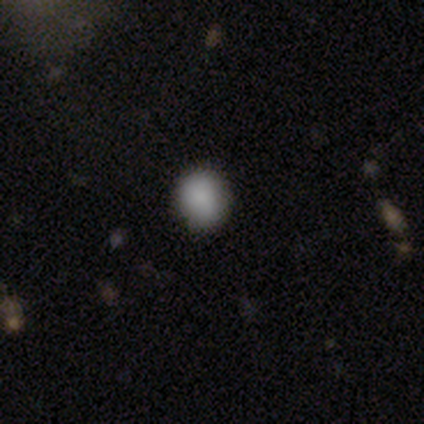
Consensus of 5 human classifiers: smooth 100%, featured or disk 0%, star or artifact 0%. Down the decision tree: how rounded — round (80%); merging — none (60%).